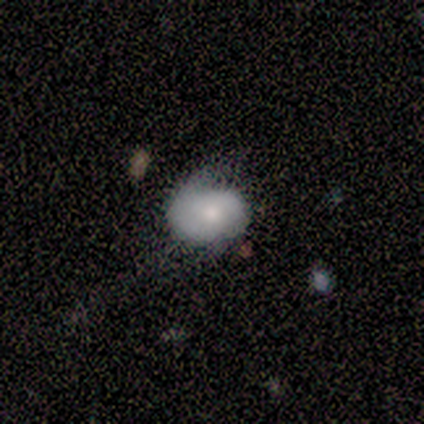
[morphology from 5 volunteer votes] This appears to be a smooth galaxy with no disk features (60%) that is round (67%). Merging: none (50%, tied with minor disturbance).